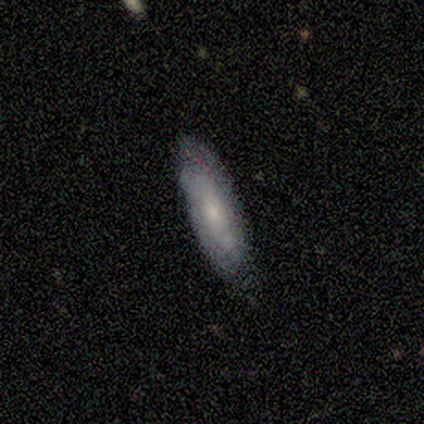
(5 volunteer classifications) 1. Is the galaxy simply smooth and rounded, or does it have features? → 60% smooth, 20% featured or disk, 20% star or artifact.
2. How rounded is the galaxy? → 67% in between, 33% cigar-shaped, 0% round.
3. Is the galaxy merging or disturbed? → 75% none, 25% minor disturbance, 0% major disturbance, 0% merger.